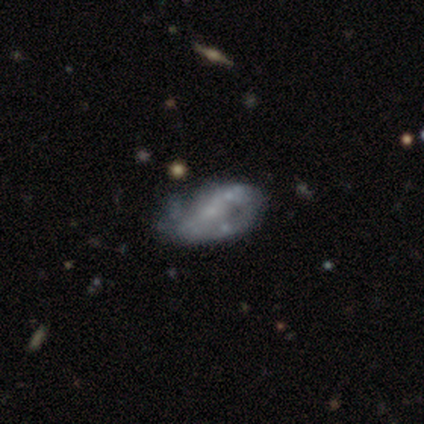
Volunteers were most divided on "bulge size" (2-way tie): small: 45%, none: 45%, moderate: 10%, dominant: 0%, large: 0%. Remaining: edge-on disk — no (100%); smooth or featured — featured or disk (81%); spiral arms — no (59%); bar — no (55%); merging — minor disturbance (39%).